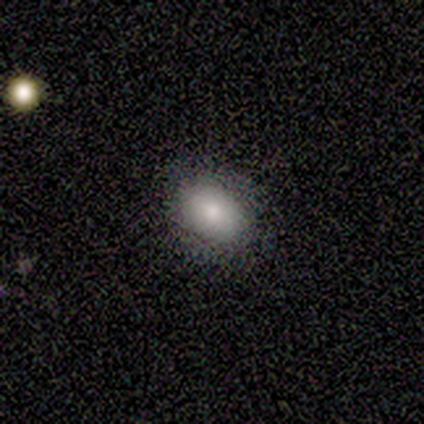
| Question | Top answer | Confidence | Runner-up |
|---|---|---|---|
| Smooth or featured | smooth | 80% | featured or disk (20%) |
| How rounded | in between | 75% | round (25%) |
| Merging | none | 100% | — |